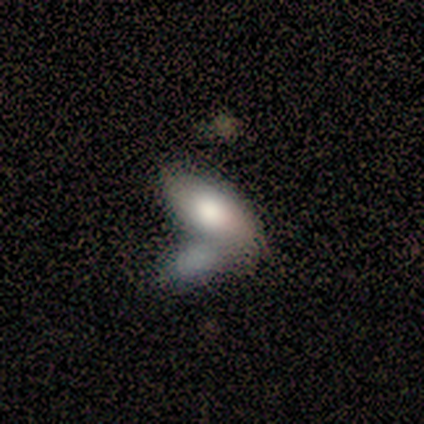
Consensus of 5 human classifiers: A smooth galaxy with no disk features (60%) that is in between round and cigar-shaped (100%).

Vote fractions:
- Smooth or featured? smooth: 60% / featured or disk: 40% / star or artifact: 0%
- How rounded? in between: 100% / round: 0% / cigar-shaped: 0%
- Merging? none: 40% (tied) / merger: 40% (tied) / minor disturbance: 20% / major disturbance: 0%